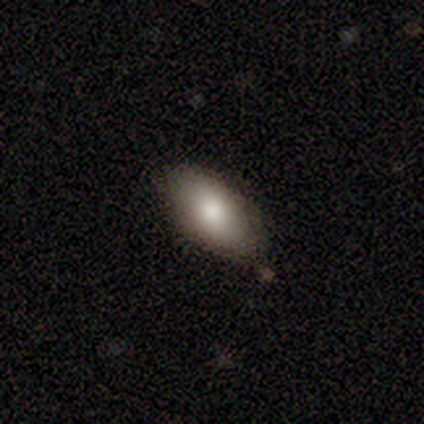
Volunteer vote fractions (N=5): Q: Smooth or featured?
A: smooth (80%); runner-up: featured or disk (20%)
Q: How rounded?
A: in between (100%)
Q: Merging?
A: none (80%); runner-up: minor disturbance (20%)